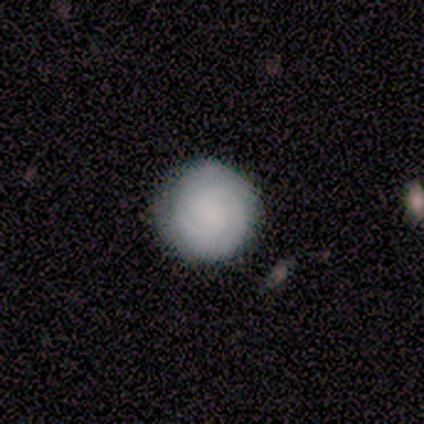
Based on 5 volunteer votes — smooth_or_featured: smooth (p=0.40) [tied with: featured or disk p=0.40]
how_rounded: round (p=1.00)
merging: none (p=1.00)